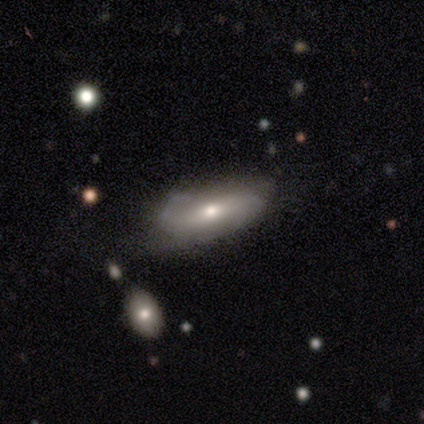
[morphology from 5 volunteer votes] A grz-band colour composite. It shows a featured or disk galaxy (60%) with a strong bar (33%, tied with weak and no), 2 (100%) medium (67%) spiral arms (100%) and a small central bulge (67%). Merging: none (100%).